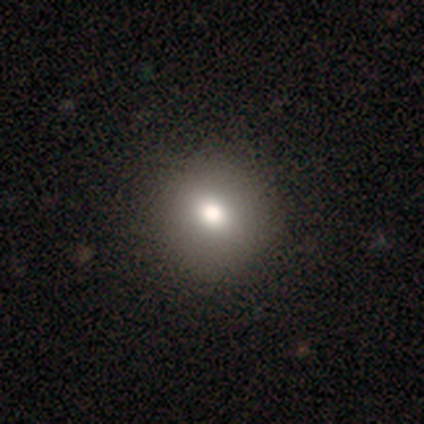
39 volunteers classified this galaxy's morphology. A smooth galaxy with no disk features (72%) that is round (79%).

Vote fractions:
- Smooth or featured? smooth: 72% / star or artifact: 15% / featured or disk: 13%
- How rounded? round: 79% / in between: 21% / cigar-shaped: 0%
- Merging? none: 79% / minor disturbance: 0% / major disturbance: 0% / merger: 0%